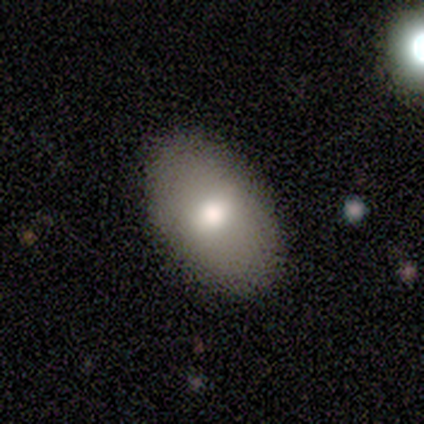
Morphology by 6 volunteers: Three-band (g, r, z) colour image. It shows a smooth galaxy with no disk features (67%) that is in between round and cigar-shaped (75%). Merging: none (100%).